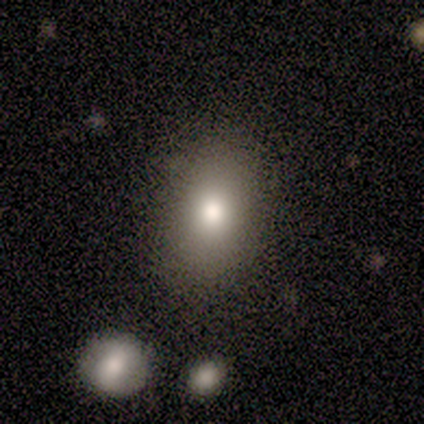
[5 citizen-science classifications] Smooth or featured? smooth (40%, tied with star or artifact)
How rounded? round (50%, tied with in between)
Merging? none (100%)